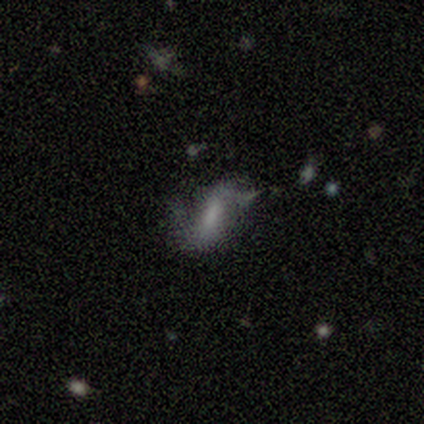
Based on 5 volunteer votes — Morphology: type=smooth (60%); roundness=in between (67%); merging=major disturbance (50%).